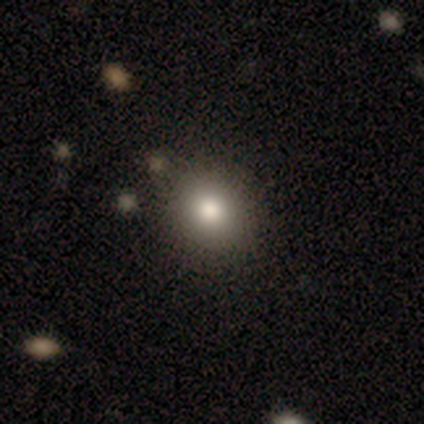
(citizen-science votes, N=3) Morphology: type=smooth (67%); roundness=round (50%, tied with in between); merging=none (100%).